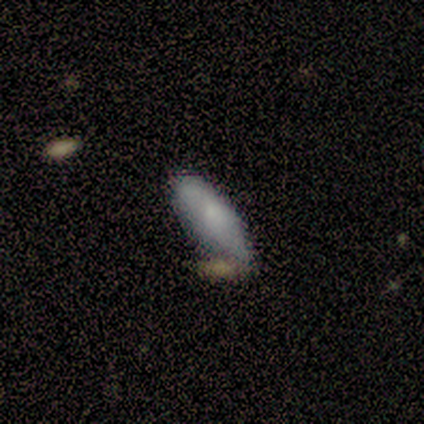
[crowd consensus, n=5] A smooth galaxy with no disk features (60%) that is in between round and cigar-shaped (100%).

Vote fractions:
- Smooth or featured? smooth: 60% / featured or disk: 40% / star or artifact: 0%
- How rounded? in between: 100% / round: 0% / cigar-shaped: 0%
- Merging? minor disturbance: 60% / merger: 40% / none: 0% / major disturbance: 0%